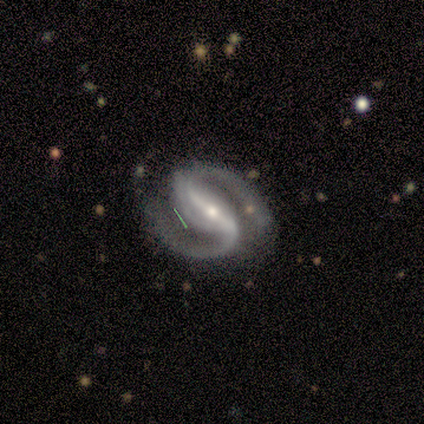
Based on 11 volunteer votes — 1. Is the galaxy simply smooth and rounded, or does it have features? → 100% featured or disk, 0% smooth, 0% star or artifact.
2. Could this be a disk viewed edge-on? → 100% no, 0% yes.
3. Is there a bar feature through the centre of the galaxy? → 73% strong, 27% weak, 0% no.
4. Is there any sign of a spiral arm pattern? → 82% yes, 18% no.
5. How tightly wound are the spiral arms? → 67% medium, 22% tight, 11% loose.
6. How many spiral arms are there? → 100% 2, 0% 1, 0% 3, 0% 4, 0% more than 4, 0% can't tell.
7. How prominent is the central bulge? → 64% small, 18% moderate, 9% large, 9% none, 0% dominant.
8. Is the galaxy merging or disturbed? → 55% none, 27% minor disturbance, 18% major disturbance, 0% merger.